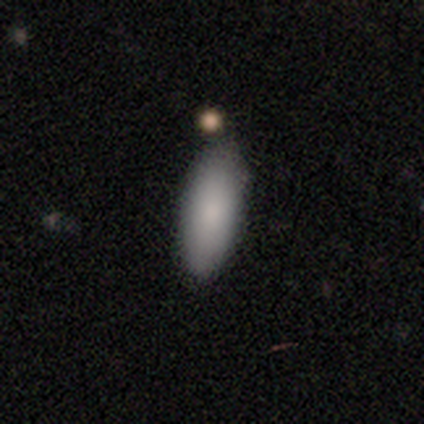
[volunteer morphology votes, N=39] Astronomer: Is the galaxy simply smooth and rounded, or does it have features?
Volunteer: smooth — 87%.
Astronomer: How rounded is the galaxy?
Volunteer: in between — 79%.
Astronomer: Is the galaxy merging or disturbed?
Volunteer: none — 79%.